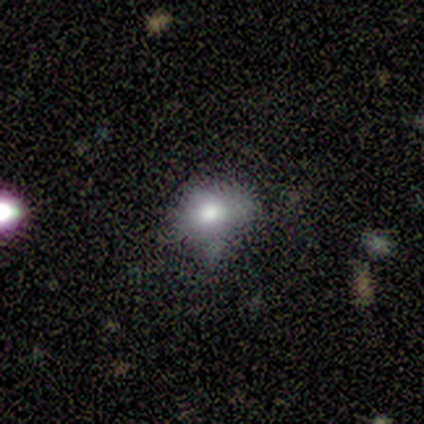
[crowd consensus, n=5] Volunteers were most divided on "merging": none: 50%, minor disturbance: 25%, major disturbance: 25%, merger: 0%. More confident: smooth or featured — smooth (80%); how rounded — round (75%).